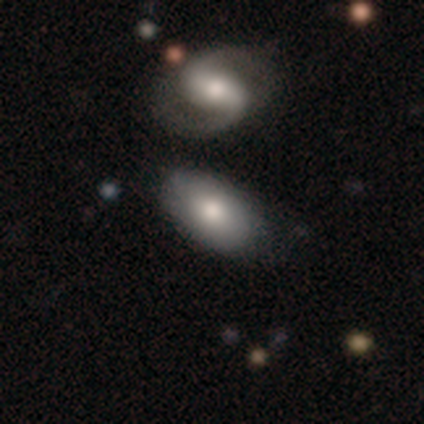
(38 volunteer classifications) Q: Smooth or featured?
A: smooth (58%); runner-up: featured or disk (42%)
Q: How rounded?
A: in between (91%); runner-up: round (9%)
Q: Merging?
A: none (61%); runner-up: merger (24%)